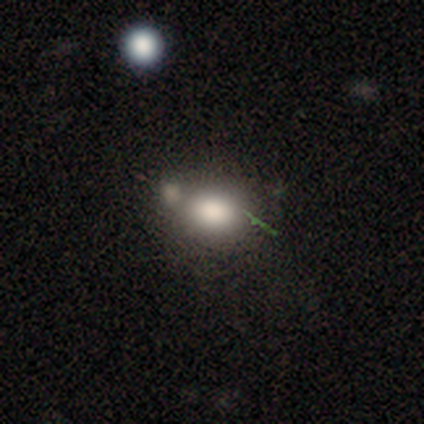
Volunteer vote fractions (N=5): Smooth or featured: smooth — 100%
How rounded: in between — 60% (round — 40%)
Merging: none — 60% (merger — 40%)